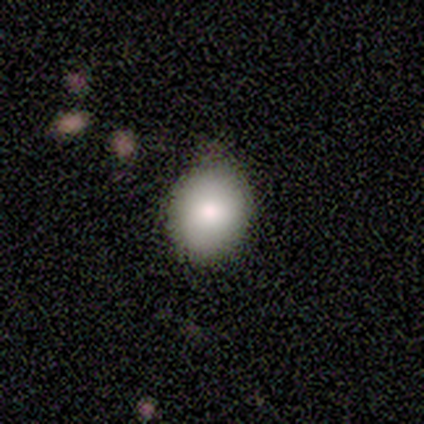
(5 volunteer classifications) smooth_or_featured: smooth (p=1.00)
how_rounded: in between (p=0.60) [alt: round p=0.40]
merging: none (p=0.80) [alt: minor disturbance p=0.20]